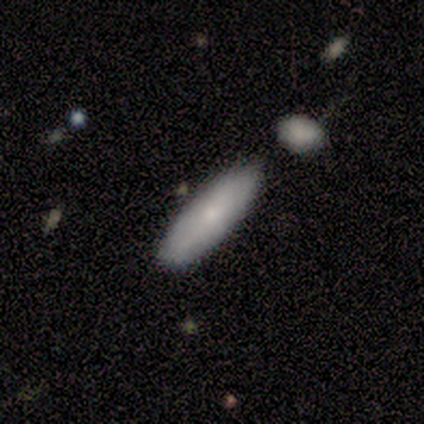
This is clearly a smooth galaxy (100%). How rounded: likely cigar-shaped (67%). Merging: likely minor disturbance (67%).